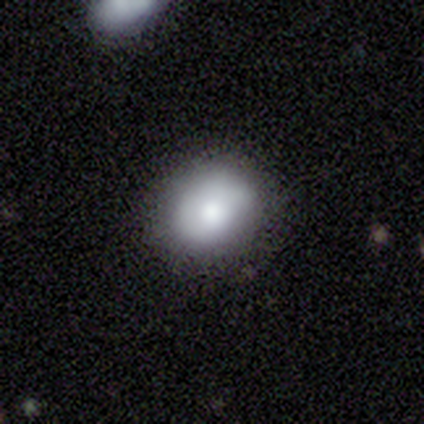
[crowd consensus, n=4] Morphology: type=smooth (50%, tied with featured or disk); roundness=round (100%); merging=none (75%).